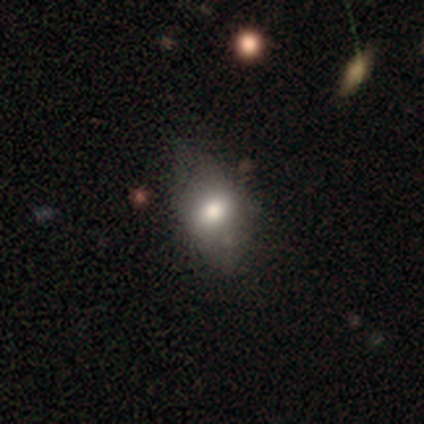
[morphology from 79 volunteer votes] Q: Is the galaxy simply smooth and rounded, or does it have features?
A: smooth — 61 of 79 (77%).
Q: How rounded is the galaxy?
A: in between — 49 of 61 (80%).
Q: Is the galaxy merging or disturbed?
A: none — 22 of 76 (29%).